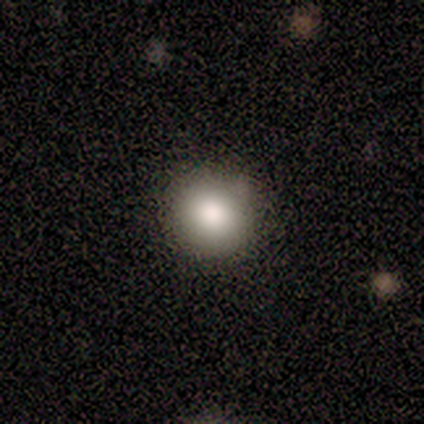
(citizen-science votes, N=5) Smooth or featured? smooth (60%)
How rounded? round (100%)
Merging? none (100%)